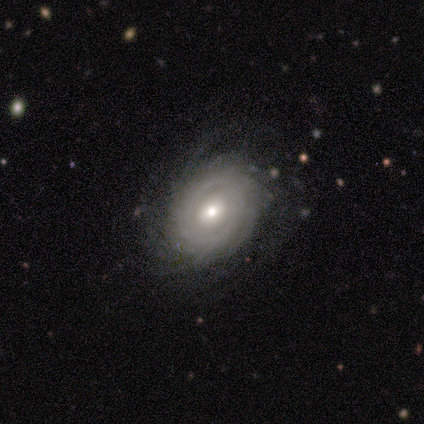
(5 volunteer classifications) Q: Smooth or featured?
A: featured or disk (60%); runner-up: smooth (40%)
Q: Edge-on disk?
A: yes (67%); runner-up: no (33%)
Q: Edge-on bulge?
A: rounded (100%)
Q: Merging?
A: none (40%); tied with: major disturbance (40%)